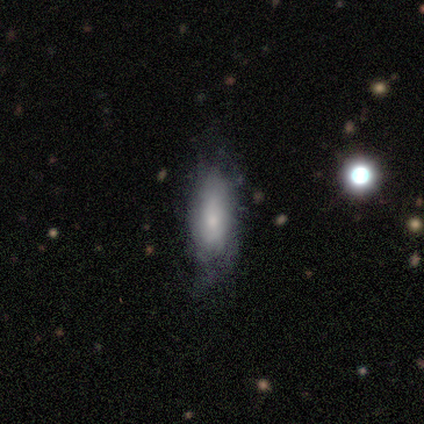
Smooth or featured? 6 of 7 (86%) said smooth. How rounded? 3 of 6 (50%) said in between. Merging? 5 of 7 (71%) said none.